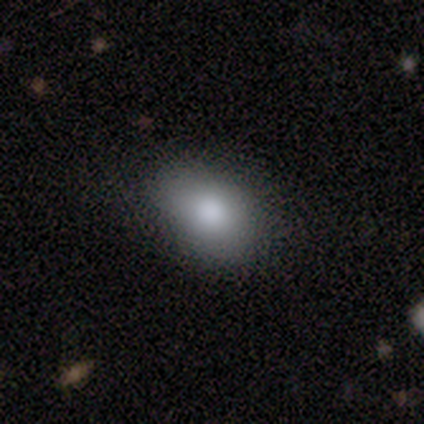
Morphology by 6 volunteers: smooth-or-featured: smooth: 100% | featured or disk: 0% | star or artifact: 0%
  how-rounded: in between: 100% | round: 0% | cigar-shaped: 0%
  merging: none: 83% | major disturbance: 17% | minor disturbance: 0% | merger: 0%